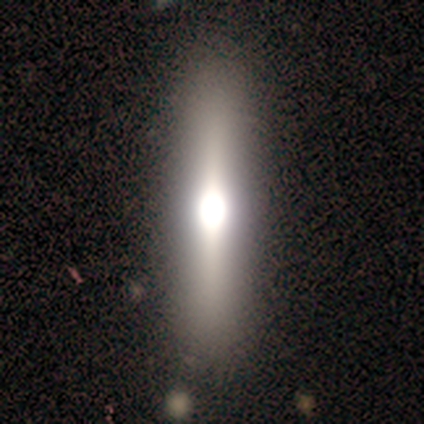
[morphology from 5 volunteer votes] Smooth or featured: smooth — 60% (featured or disk — 20%)
How rounded: cigar-shaped — 67% (in between — 33%)
Merging: none — 75% (minor disturbance — 25%)